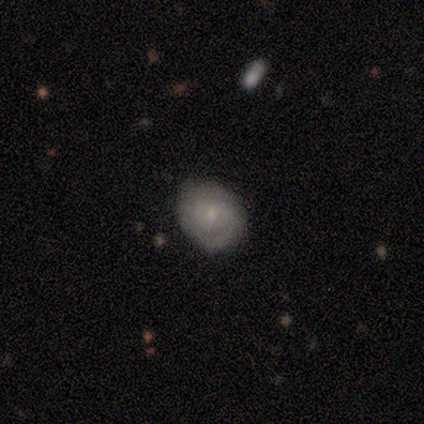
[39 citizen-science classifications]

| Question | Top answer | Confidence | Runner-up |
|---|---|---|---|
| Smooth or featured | smooth | 62% | featured or disk (33%) |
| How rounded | round | 62% | in between (38%) |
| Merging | none | 70% | minor disturbance (19%) |